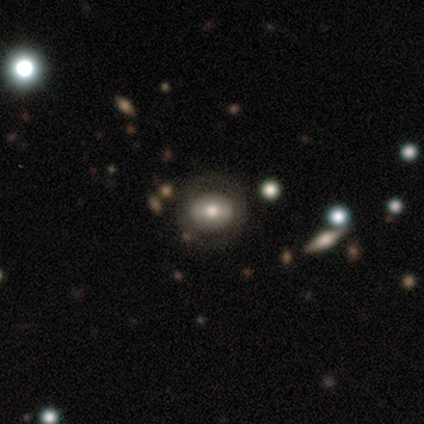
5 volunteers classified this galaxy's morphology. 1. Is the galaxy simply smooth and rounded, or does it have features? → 40% smooth (tied), 40% featured or disk (tied), 20% star or artifact.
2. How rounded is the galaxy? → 50% round (tied), 50% in between (tied), 0% cigar-shaped.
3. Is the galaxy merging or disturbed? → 75% none, 25% minor disturbance, 0% major disturbance, 0% merger.